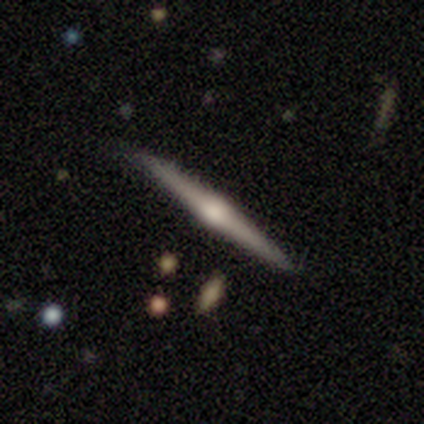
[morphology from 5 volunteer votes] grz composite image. It shows a featured or disk galaxy (80%) viewed edge-on (75%) with a rounded central bulge (67%). Merging: none (80%).